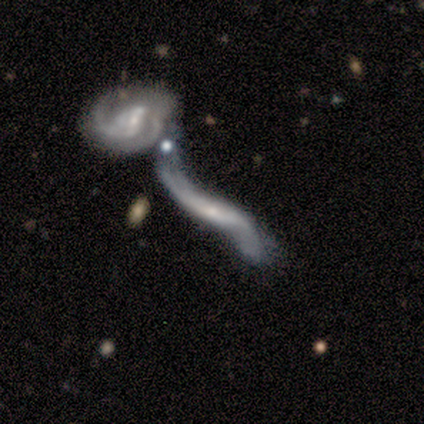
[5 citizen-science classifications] Smooth or featured: featured or disk — 80% (smooth — 20%)
Edge-on disk: no — 100%
Bar: strong — 50% (weak — 25%)
Spiral arms: yes — 100%
Spiral winding: loose — 100%
Spiral arm count: 2 — 100%
Bulge size: small — 75% (moderate — 25%)
Merging: merger — 80% (minor disturbance — 20%)